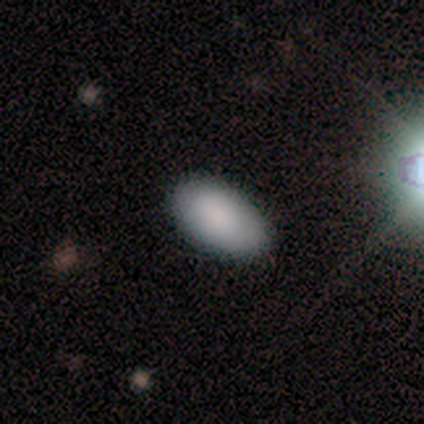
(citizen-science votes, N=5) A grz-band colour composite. It shows a smooth galaxy with no disk features (80%) that is in between round and cigar-shaped (75%). Merging: none (75%).